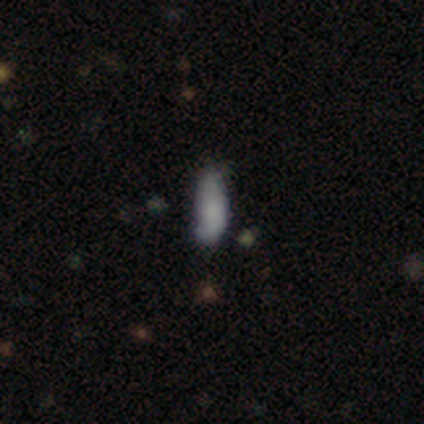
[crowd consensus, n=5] Smooth or featured: smooth — 80% (featured or disk — 20%)
How rounded: cigar-shaped — 75% (in between — 25%)
Merging: none — 60% (minor disturbance — 40%)